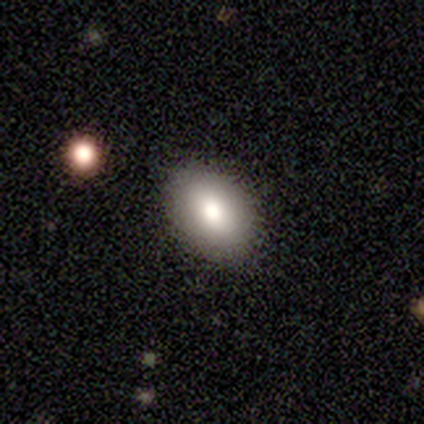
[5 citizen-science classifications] Smooth or featured? smooth (100%)
How rounded? in between (80%)
Merging? none (100%)